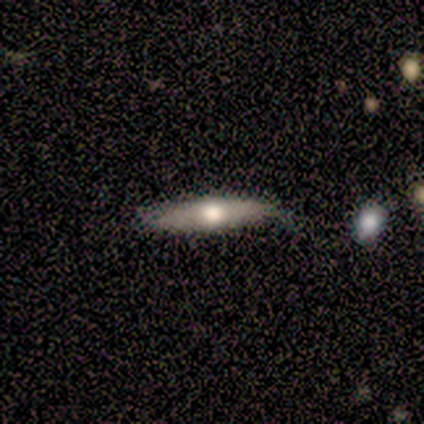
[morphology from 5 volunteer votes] Q: Smooth or featured?
A: featured or disk (80%); runner-up: smooth (20%)
Q: Edge-on disk?
A: yes (75%); runner-up: no (25%)
Q: Edge-on bulge?
A: rounded (100%)
Q: Merging?
A: none (40%); tied with: minor disturbance (40%)